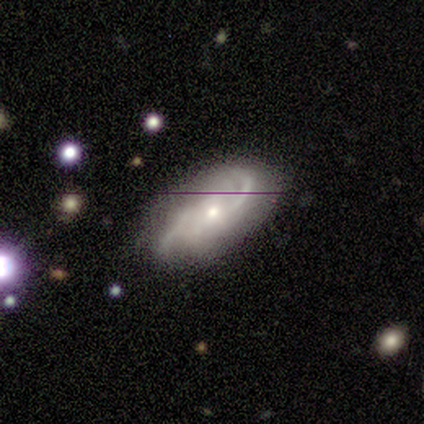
Volunteers were most divided on "spiral winding" (3-way tie): tight: 33%, medium: 33%, loose: 33%. More confident: edge-on disk — no (100%); spiral arms — yes (100%); spiral arm count — 2 (100%); smooth or featured — featured or disk (75%); merging — none (75%); bar — no (67%); bulge size — small (67%).